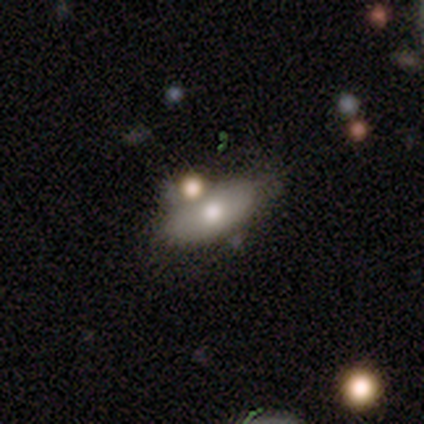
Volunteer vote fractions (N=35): Smooth or featured? smooth (71%)
How rounded? in between (100%)
Merging? merger (52%)